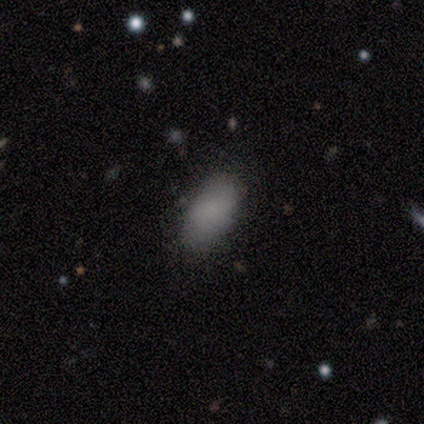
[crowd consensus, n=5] Smooth or featured? smooth (100%)
How rounded? in between (100%)
Merging? none (100%)